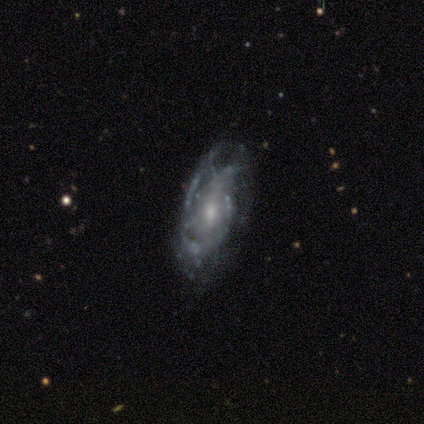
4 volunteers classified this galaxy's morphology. Smooth or featured?
  - smooth: 50% * (tied)
  - featured or disk: 50% * (tied)
  - star or artifact: 0%
How rounded?
  - in between: 100% *
  - round: 0%
  - cigar-shaped: 0%
Merging?
  - none: 50% * (tied)
  - major disturbance: 50% * (tied)
  - minor disturbance: 0%
  - merger: 0%